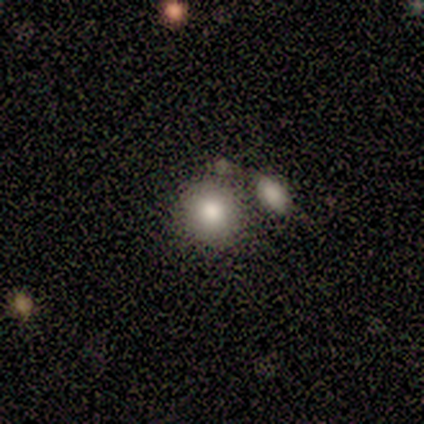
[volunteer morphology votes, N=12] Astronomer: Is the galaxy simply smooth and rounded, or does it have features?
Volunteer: smooth — 67%.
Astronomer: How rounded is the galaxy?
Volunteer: round — 88%.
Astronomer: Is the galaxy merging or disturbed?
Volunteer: none — 64%.